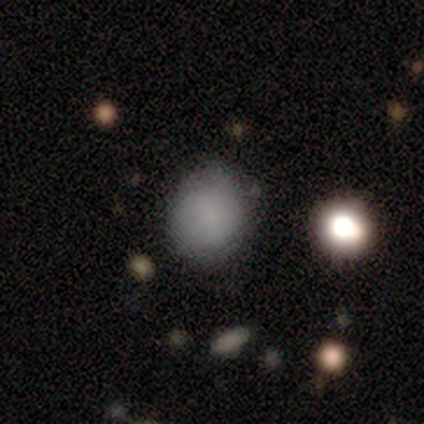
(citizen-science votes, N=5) A smooth galaxy with no disk features (100%) that is round (100%).

Vote fractions:
- Smooth or featured? smooth: 100% / featured or disk: 0% / star or artifact: 0%
- How rounded? round: 100% / in between: 0% / cigar-shaped: 0%
- Merging? none: 100% / minor disturbance: 0% / major disturbance: 0% / merger: 0%